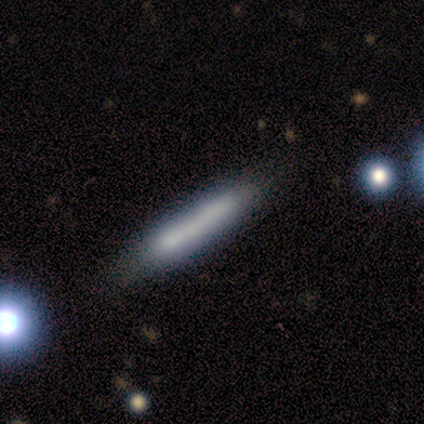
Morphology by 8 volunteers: A smooth galaxy with no disk features (88%) that is cigar-shaped (100%).

Vote fractions:
- Smooth or featured? smooth: 88% / star or artifact: 12% / featured or disk: 0%
- How rounded? cigar-shaped: 100% / round: 0% / in between: 0%
- Merging? none: 71% / minor disturbance: 29% / major disturbance: 0% / merger: 0%